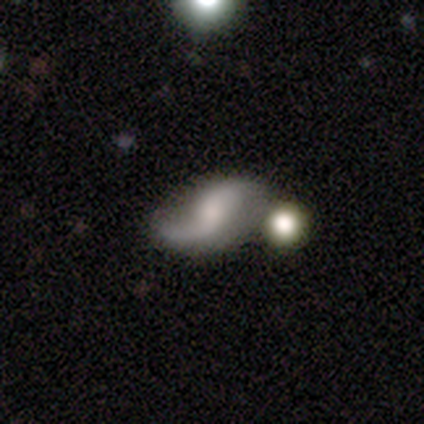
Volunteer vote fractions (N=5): Volunteers were most divided on "smooth or featured": featured or disk: 60%, smooth: 40%, star or artifact: 0%. More confident: edge-on disk — no (100%); spiral arms — yes (100%); spiral winding — loose (100%); bulge size — small (100%); bar — no (67%); spiral arm count — 2 (67%); merging — none (60%).